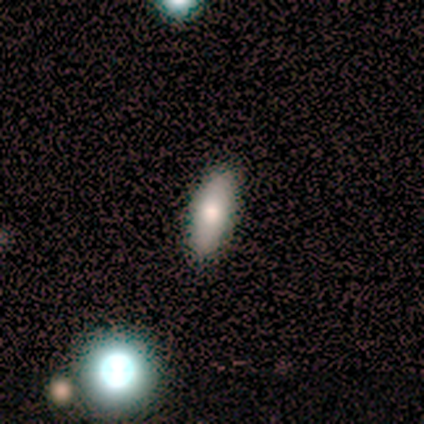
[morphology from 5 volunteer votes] type=smooth (60%); roundness=in between (67%); merging=none (100%).